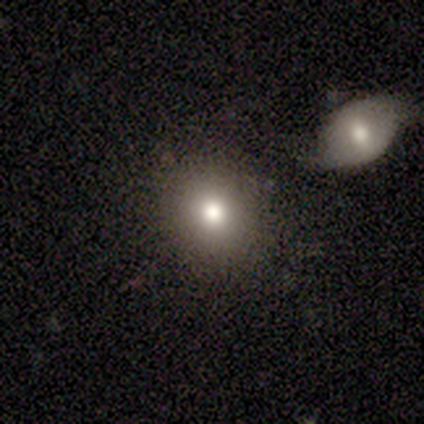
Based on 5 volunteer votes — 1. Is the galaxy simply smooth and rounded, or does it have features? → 100% smooth, 0% featured or disk, 0% star or artifact.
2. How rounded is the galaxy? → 80% round, 20% in between, 0% cigar-shaped.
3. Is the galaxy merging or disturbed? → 60% none, 20% minor disturbance, 20% major disturbance, 0% merger.